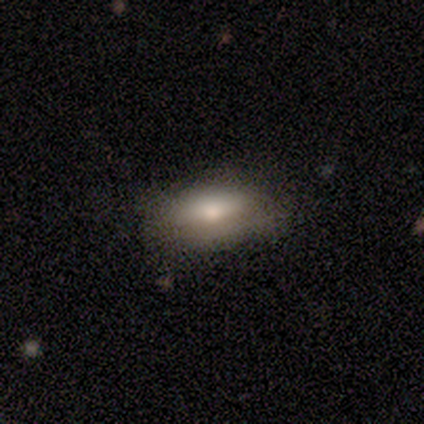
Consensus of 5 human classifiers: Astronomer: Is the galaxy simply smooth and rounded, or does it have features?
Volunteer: smooth — 80%.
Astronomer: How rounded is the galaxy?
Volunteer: in between — 100%.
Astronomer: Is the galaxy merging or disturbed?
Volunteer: none — 80%.